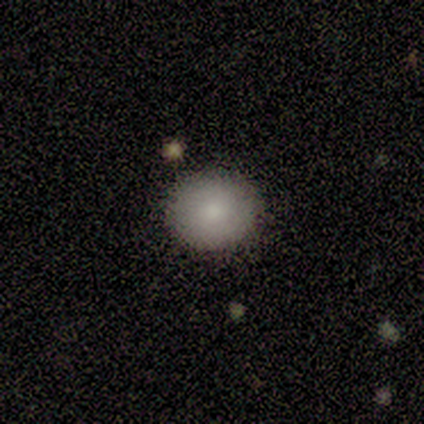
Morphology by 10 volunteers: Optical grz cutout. It shows a smooth galaxy with no disk features (90%) that is round (100%). Merging: none (100%).